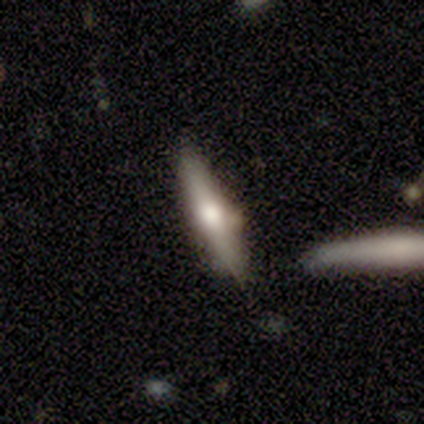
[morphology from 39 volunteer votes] A featured or disk galaxy (59%) viewed edge-on (96%) with a rounded central bulge (95%).

Vote fractions:
- Smooth or featured? featured or disk: 59% / smooth: 36% / star or artifact: 5%
- Edge-on disk? yes: 96% / no: 4%
- Edge-on bulge? rounded: 95% / none: 5% / boxy: 0%
- Merging? none: 65% / minor disturbance: 32% / merger: 3% / major disturbance: 0%